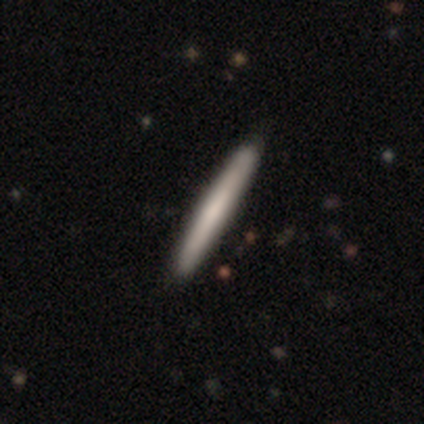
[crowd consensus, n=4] A featured or disk galaxy (75%) viewed edge-on (67%) with no central bulge (50%, tied with rounded).

Vote fractions:
- Smooth or featured? featured or disk: 75% / smooth: 25% / star or artifact: 0%
- Edge-on disk? yes: 67% / no: 33%
- Edge-on bulge? none: 50% (tied) / rounded: 50% (tied) / boxy: 0%
- Merging? none: 50% (tied) / minor disturbance: 50% (tied) / major disturbance: 0% / merger: 0%